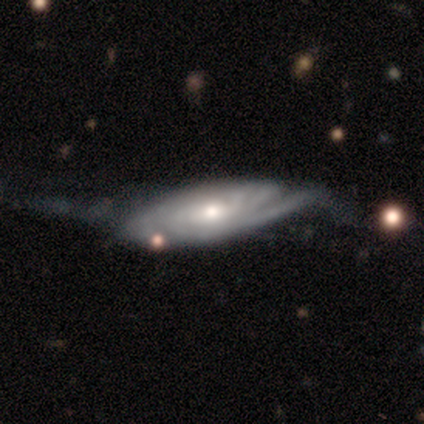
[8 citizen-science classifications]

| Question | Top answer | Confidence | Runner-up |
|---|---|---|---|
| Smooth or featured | featured or disk | 75% | star or artifact (25%) |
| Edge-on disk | no | 100% | — |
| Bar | no | 67% | strong (17%) |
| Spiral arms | yes | 100% | — |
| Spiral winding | tight | 100% | — |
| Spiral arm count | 2 | 33% | tied: can't tell (33%) |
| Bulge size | small | 50% | moderate (33%) |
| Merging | none | 83% | major disturbance (17%) |